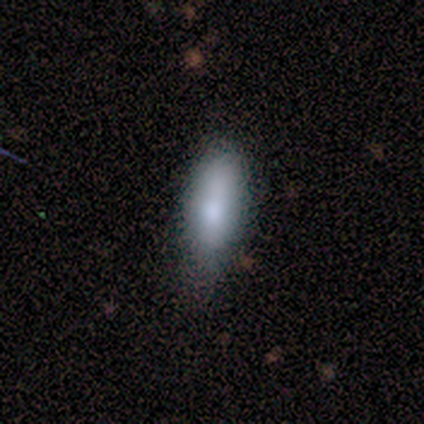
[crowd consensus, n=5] smooth 100%, featured or disk 0%, star or artifact 0%. Down the decision tree: how rounded — in between (60%); merging — none (60%).